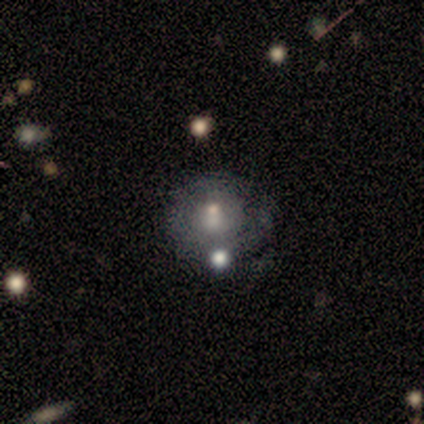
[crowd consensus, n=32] Volunteers were most divided on "spiral arms": no: 56%, yes: 44%. More confident: edge-on disk — no (100%); bar — no (88%); merging — none (52%); bulge size — small (50%); smooth or featured — featured or disk (50%).